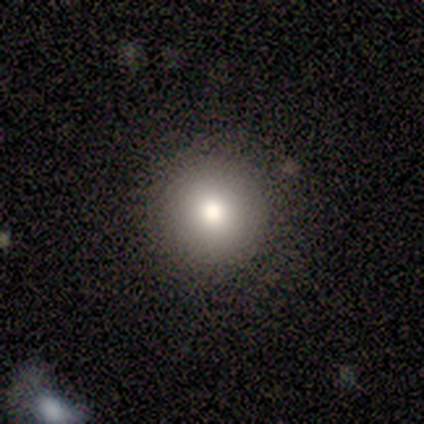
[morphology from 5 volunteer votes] Smooth or featured: smooth — 80% (featured or disk — 20%)
How rounded: round — 100%
Merging: none — 100%